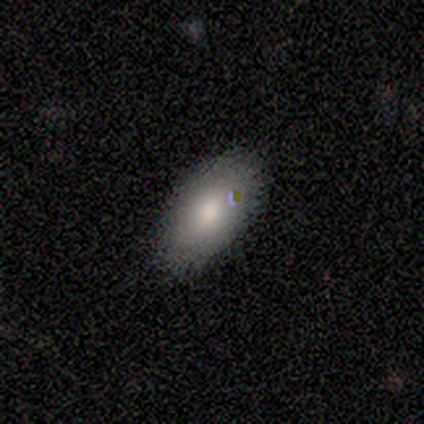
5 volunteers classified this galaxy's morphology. smooth-or-featured: smooth: 100% | featured or disk: 0% | star or artifact: 0%
  how-rounded: in between: 100% | round: 0% | cigar-shaped: 0%
  merging: none: 100% | minor disturbance: 0% | major disturbance: 0% | merger: 0%